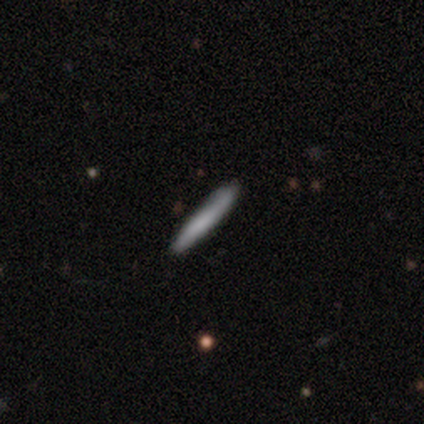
smooth_or_featured: smooth (p=1.00)
how_rounded: cigar-shaped (p=1.00)
merging: none (p=1.00)